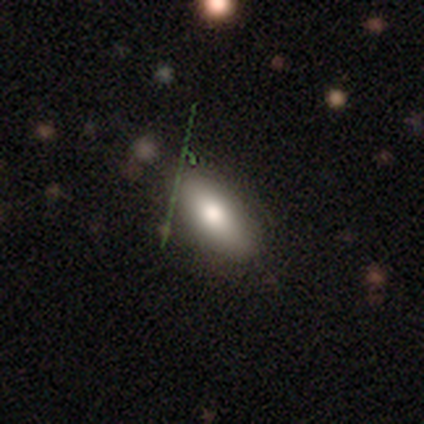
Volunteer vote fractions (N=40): Smooth or featured? 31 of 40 (78%) said smooth. How rounded? 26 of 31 (84%) said in between. Merging? 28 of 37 (76%) said none.